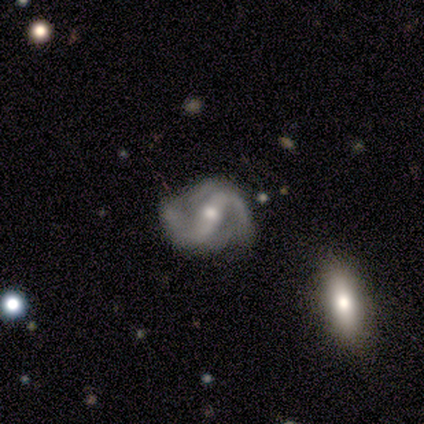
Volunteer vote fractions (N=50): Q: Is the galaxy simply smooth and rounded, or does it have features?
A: featured or disk — 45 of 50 (90%).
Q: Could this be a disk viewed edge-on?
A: no — 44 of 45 (98%).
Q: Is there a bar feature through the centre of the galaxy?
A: strong — 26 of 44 (59%).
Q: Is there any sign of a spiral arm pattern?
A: yes — 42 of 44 (95%).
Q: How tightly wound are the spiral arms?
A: medium — 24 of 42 (57%).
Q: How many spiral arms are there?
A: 2 — 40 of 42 (95%).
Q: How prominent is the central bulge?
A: moderate — 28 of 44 (64%).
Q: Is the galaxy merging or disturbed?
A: none — 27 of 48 (56%).